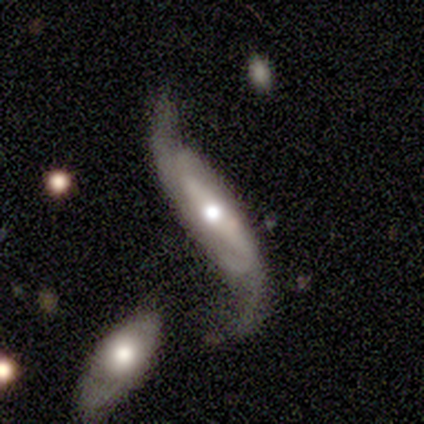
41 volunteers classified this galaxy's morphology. Smooth or featured?
  - featured or disk: 88% *
  - smooth: 10%
  - star or artifact: 2%
Edge-on disk?
  - no: 75% *
  - yes: 25%
Bar?
  - strong: 52% *
  - no: 26%
  - weak: 22%
Spiral arms?
  - yes: 93% *
  - no: 7%
Spiral winding?
  - loose: 84% *
  - tight: 12%
  - medium: 4%
Spiral arm count?
  - 2: 92% *
  - 1: 4%
  - 4: 4%
  - 3: 0%
  - more than 4: 0%
  - can't tell: 0%
Bulge size?
  - moderate: 56% *
  - large: 26%
  - small: 15%
  - none: 4%
  - dominant: 0%
Merging?
  - none: 40% *
  - minor disturbance: 22%
  - major disturbance: 20%
  - merger: 18%